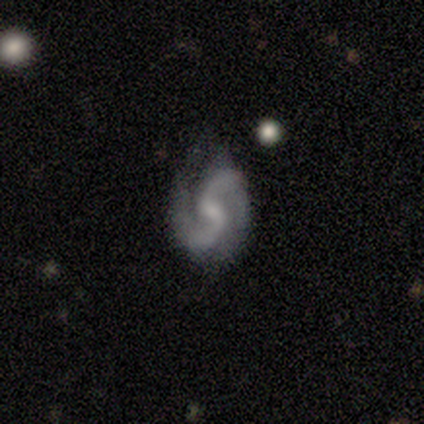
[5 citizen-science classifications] This is clearly a featured or disk galaxy (100%). It is clearly not viewed edge-on (100%). Bar: clearly weak (80%). Spiral arm pattern: clearly yes (100%). Spiral arm count: clearly 2 (100%). Spiral winding: clearly medium (80%). Central bulge: likely small (60%). Merging: likely minor disturbance (60%).